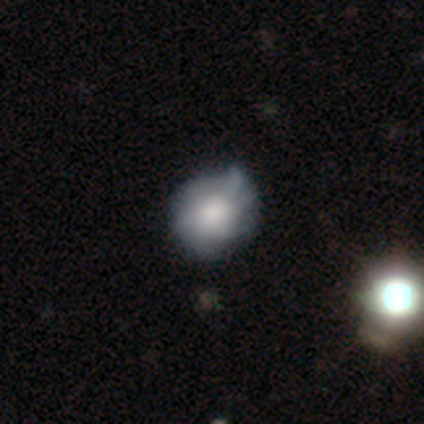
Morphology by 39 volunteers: smooth_or_featured: smooth (p=0.54) [alt: featured or disk p=0.44]
how_rounded: round (p=0.62) [alt: in between p=0.38]
merging: none (p=0.50) [alt: minor disturbance p=0.16]